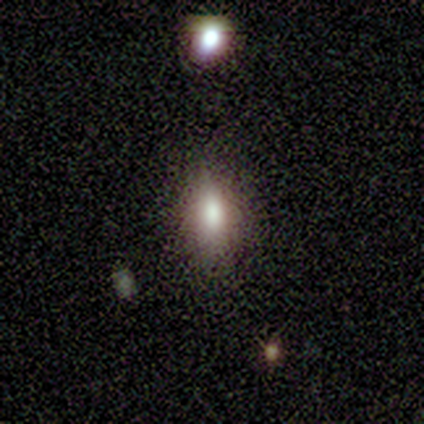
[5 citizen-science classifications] A smooth galaxy with no disk features (80%) that is in between round and cigar-shaped (50%).

Vote fractions:
- Smooth or featured? smooth: 80% / featured or disk: 20% / star or artifact: 0%
- How rounded? in between: 50% / round: 25% / cigar-shaped: 25%
- Merging? none: 80% / minor disturbance: 20% / major disturbance: 0% / merger: 0%